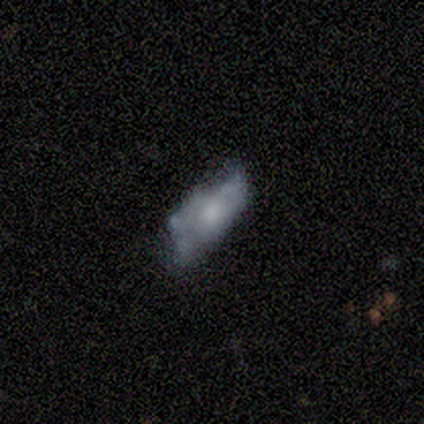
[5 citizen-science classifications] featured or disk 60%, smooth 20%, star or artifact 20%. Down the decision tree: edge-on disk — no (100%); bar — no (100%); spiral arms — no (100%); bulge size — moderate (67%); merging — none (50%, tied with minor disturbance).